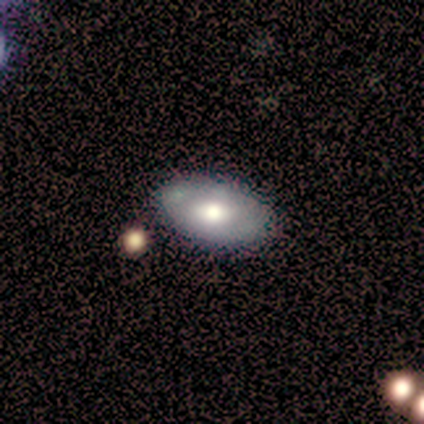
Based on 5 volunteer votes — A smooth galaxy with no disk features (80%) that is in between round and cigar-shaped (100%). Merging: none (80%).